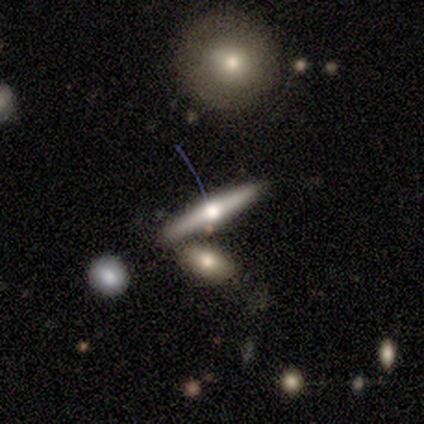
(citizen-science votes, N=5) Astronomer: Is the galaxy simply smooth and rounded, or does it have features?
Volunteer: featured or disk — 80%.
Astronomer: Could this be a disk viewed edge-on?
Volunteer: yes — 100%.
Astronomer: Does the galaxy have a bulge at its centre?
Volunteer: rounded — 100%.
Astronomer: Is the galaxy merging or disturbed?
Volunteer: none — 60% (runner-up: merger, 40%).